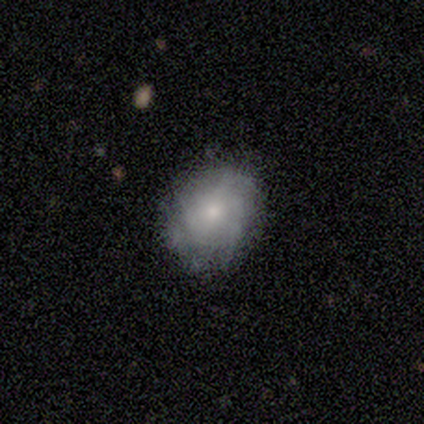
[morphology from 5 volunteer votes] smooth-or-featured: smooth: 60% | featured or disk: 40% | star or artifact: 0%
  how-rounded: round: 67% | in between: 33% | cigar-shaped: 0%
  merging: none: 60% | minor disturbance: 40% | major disturbance: 0% | merger: 0%